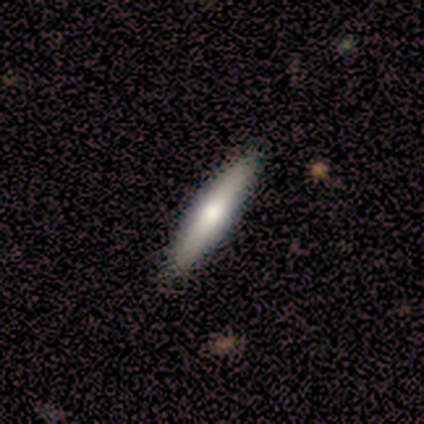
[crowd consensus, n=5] Volunteers were most divided on "smooth or featured": smooth: 80%, featured or disk: 20%, star or artifact: 0%. More confident: how rounded — cigar-shaped (100%); merging — none (100%).